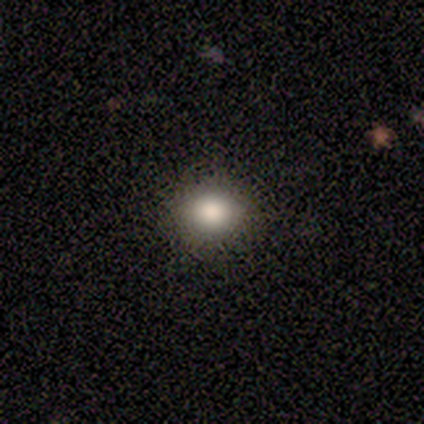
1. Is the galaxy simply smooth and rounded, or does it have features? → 50% smooth (tied), 50% featured or disk (tied), 0% star or artifact.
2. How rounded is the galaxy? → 100% round, 0% in between, 0% cigar-shaped.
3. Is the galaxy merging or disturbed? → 100% none, 0% minor disturbance, 0% major disturbance, 0% merger.